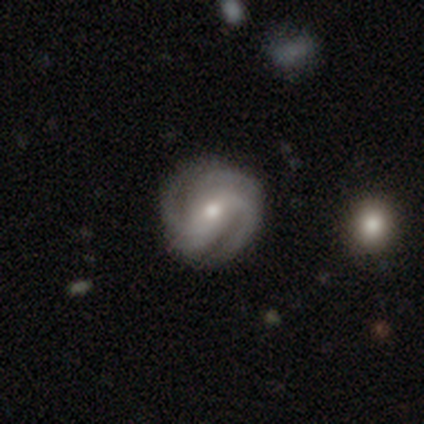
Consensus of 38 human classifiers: Smooth or featured: featured or disk — 97% (smooth — 3%)
Edge-on disk: no — 97% (yes — 3%)
Bar: no — 53% (strong — 31%)
Spiral arms: yes — 94% (no — 6%)
Spiral winding: tight — 53% (medium — 44%)
Spiral arm count: 2 — 35% (4 — 26%)
Bulge size: moderate — 69% (small — 22%)
Merging: none — 58% (minor disturbance — 13%)